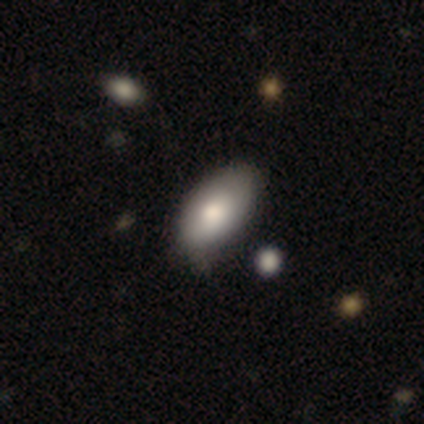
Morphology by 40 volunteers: Overall: smooth (82%). How rounded: in between (97%). Merging: none (37%; minor disturbance 24%).